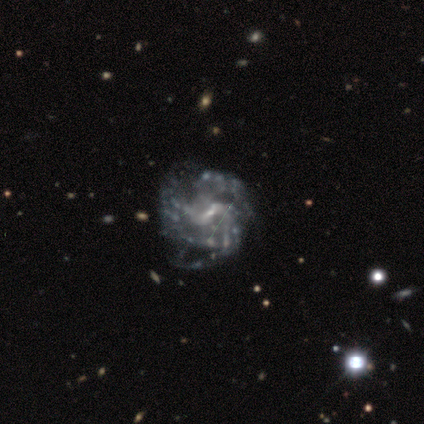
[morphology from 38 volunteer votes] Overall: featured or disk (97%). Edge-on disk: no (100%). Bar: weak (43%; no 30%). Spiral arms: yes (95%). Spiral arm count: 3 (43%; can't tell 23%). Spiral winding: medium (54%; tight 26%). Bulge size: small (73%). Merging: none (68%).